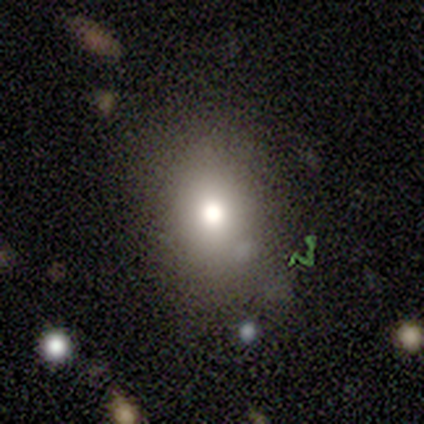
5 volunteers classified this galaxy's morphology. smooth-or-featured: smooth: 40% (tied) | featured or disk: 40% (tied) | star or artifact: 20%
  how-rounded: round: 50% (tied) | in between: 50% (tied) | cigar-shaped: 0%
  merging: none: 75% | minor disturbance: 25% | major disturbance: 0% | merger: 0%